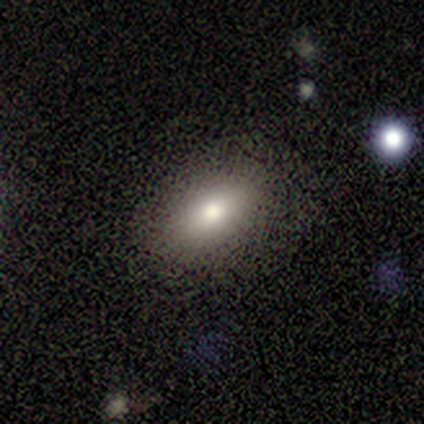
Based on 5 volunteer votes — Smooth or featured?
  - smooth: 100% *
  - featured or disk: 0%
  - star or artifact: 0%
How rounded?
  - in between: 100% *
  - round: 0%
  - cigar-shaped: 0%
Merging?
  - none: 100% *
  - minor disturbance: 0%
  - major disturbance: 0%
  - merger: 0%